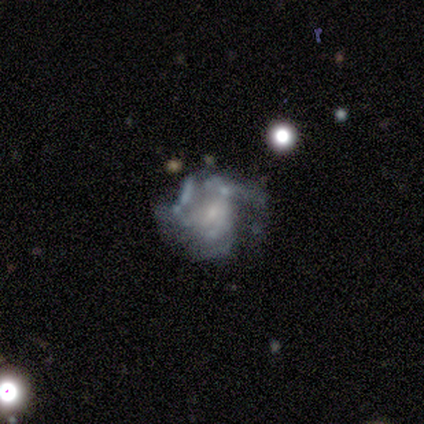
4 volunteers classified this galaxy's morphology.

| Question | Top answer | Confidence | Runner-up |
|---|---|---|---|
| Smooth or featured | featured or disk | 100% | — |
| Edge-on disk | no | 100% | — |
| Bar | no | 50% | strong (25%) |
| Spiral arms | yes | 50% | tied: no (50%) |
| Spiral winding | medium | 50% | tied: loose (50%) |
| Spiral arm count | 3 | 50% | tied: 4 (50%) |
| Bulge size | small | 75% | moderate (25%) |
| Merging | none | 50% | tied: major disturbance (50%) |